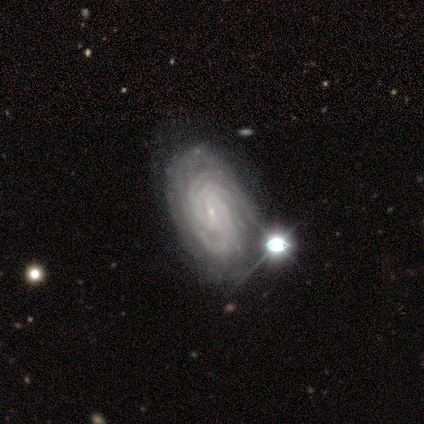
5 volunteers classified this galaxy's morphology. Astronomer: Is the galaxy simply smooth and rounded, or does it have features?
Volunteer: featured or disk — 100%.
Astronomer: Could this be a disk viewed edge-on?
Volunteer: no — 100%.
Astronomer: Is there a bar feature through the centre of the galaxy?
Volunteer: weak — 60% (runner-up: no, 40%).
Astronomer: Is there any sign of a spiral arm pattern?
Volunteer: yes — 100%.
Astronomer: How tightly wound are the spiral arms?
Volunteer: tight — 80%.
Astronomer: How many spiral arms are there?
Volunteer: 4 — 60%.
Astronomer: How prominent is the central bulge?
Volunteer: small — 100%.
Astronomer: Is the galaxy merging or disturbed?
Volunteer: none — 40%, tied with minor disturbance at 40%.